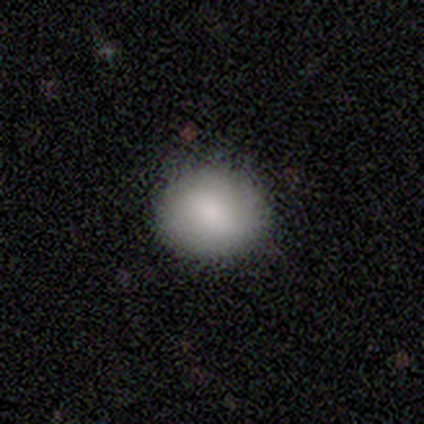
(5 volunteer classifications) A smooth galaxy with no disk features (80%) that is round (100%).

Vote fractions:
- Smooth or featured? smooth: 80% / star or artifact: 20% / featured or disk: 0%
- How rounded? round: 100% / in between: 0% / cigar-shaped: 0%
- Merging? none: 100% / minor disturbance: 0% / major disturbance: 0% / merger: 0%